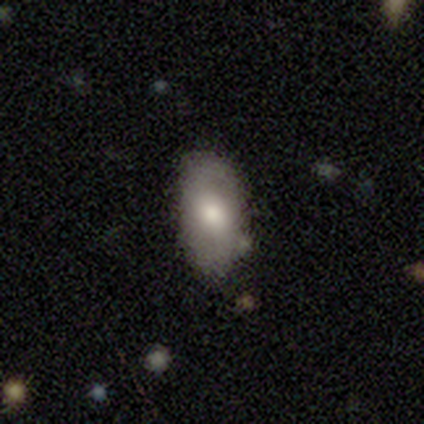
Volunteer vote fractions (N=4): A smooth galaxy with no disk features (100%) that is in between round and cigar-shaped (75%).

Vote fractions:
- Smooth or featured? smooth: 100% / featured or disk: 0% / star or artifact: 0%
- How rounded? in between: 75% / round: 25% / cigar-shaped: 0%
- Merging? none: 100% / minor disturbance: 0% / major disturbance: 0% / merger: 0%